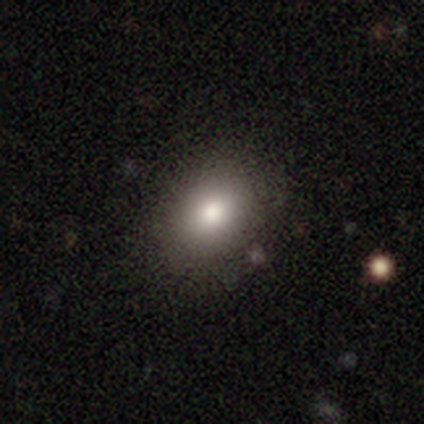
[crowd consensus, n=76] Volunteers were most divided on "how rounded": in between: 60%, round: 40%, cigar-shaped: 0%. Remaining: smooth or featured — smooth (79%); merging — none (46%).